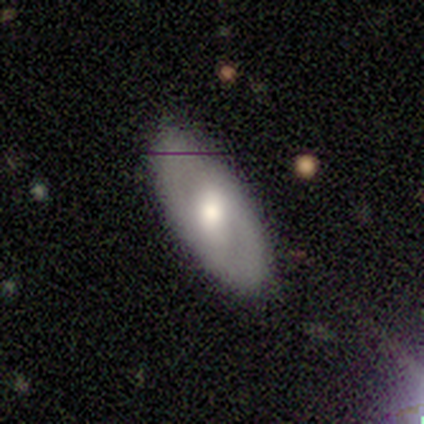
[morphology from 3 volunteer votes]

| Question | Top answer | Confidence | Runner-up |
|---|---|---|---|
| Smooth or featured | featured or disk | 67% | smooth (33%) |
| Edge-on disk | no | 100% | — |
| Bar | no | 100% | — |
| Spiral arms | no | 100% | — |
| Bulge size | moderate | 100% | — |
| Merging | none | 100% | — |